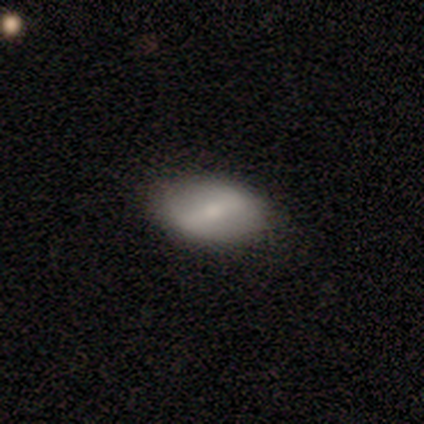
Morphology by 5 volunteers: type=smooth (60%); roundness=in between (100%); merging=none (100%).